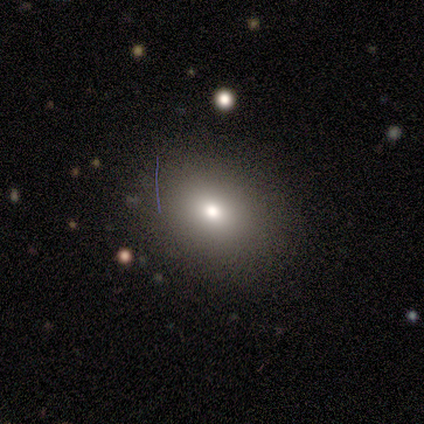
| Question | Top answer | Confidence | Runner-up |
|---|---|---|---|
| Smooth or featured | smooth | 100% | — |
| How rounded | round | 67% | in between (33%) |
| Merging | none | 100% | — |